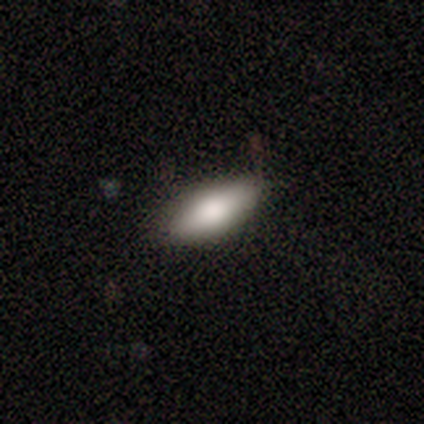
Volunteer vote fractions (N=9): Smooth or featured: smooth — 56% (featured or disk — 44%)
How rounded: in between — 80% (cigar-shaped — 20%)
Merging: none — 89% (major disturbance — 11%)